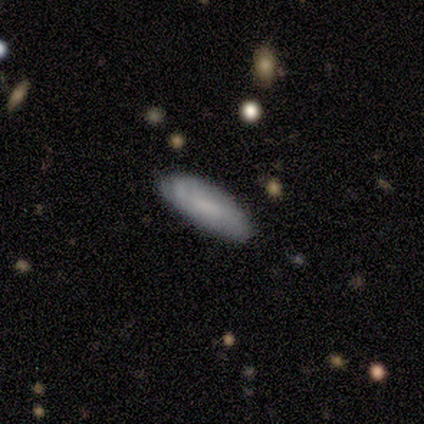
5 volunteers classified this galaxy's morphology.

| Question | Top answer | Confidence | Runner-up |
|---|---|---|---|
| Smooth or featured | smooth | 60% | star or artifact (40%) |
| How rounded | cigar-shaped | 100% | — |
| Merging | none | 100% | — |